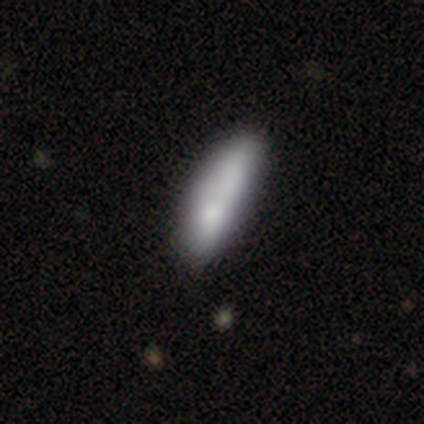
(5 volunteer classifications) Smooth or featured?
  - smooth: 100% *
  - featured or disk: 0%
  - star or artifact: 0%
How rounded?
  - in between: 60% *
  - cigar-shaped: 40%
  - round: 0%
Merging?
  - minor disturbance: 40% * (tied)
  - merger: 40% * (tied)
  - none: 20%
  - major disturbance: 0%